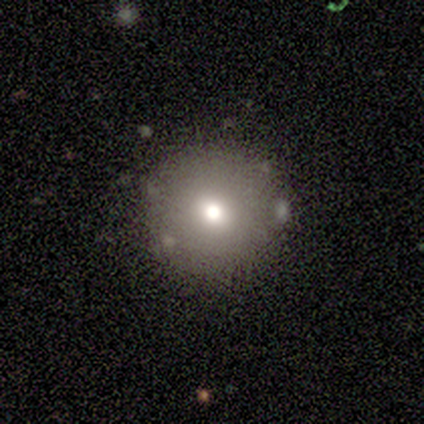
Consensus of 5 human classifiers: Smooth or featured? smooth (80%)
How rounded? round (75%)
Merging? none (80%)